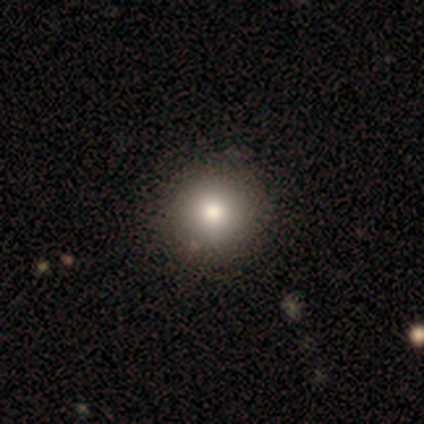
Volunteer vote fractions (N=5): smooth 80%, featured or disk 20%, star or artifact 0%. Down the decision tree: how rounded — round (100%); merging — none (100%).